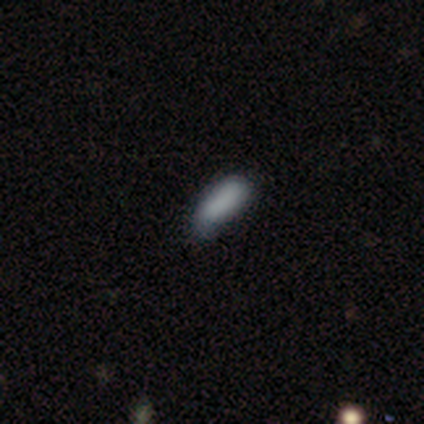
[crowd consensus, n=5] Smooth or featured? 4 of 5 (80%) said smooth. How rounded? 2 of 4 (50%, tied with cigar-shaped) said in between. Merging? 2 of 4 (50%, tied with minor disturbance) said none.